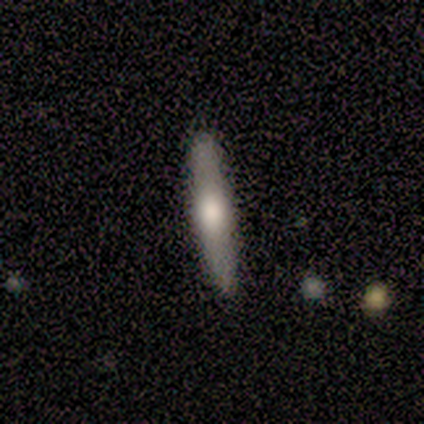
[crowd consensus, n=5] smooth-or-featured: featured or disk: 60% | smooth: 40% | star or artifact: 0%
  disk-edge-on: yes: 100% | no: 0%
    edge-on-bulge: rounded: 100% | boxy: 0% | none: 0%
  merging: none: 100% | minor disturbance: 0% | major disturbance: 0% | merger: 0%